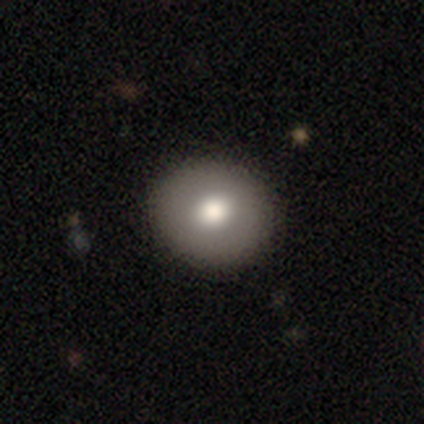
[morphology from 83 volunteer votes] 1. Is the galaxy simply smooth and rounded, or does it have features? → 65% smooth, 24% featured or disk, 11% star or artifact.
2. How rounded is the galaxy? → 78% round, 20% in between, 2% cigar-shaped.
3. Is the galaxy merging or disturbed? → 91% none, 9% minor disturbance, 0% major disturbance, 0% merger.